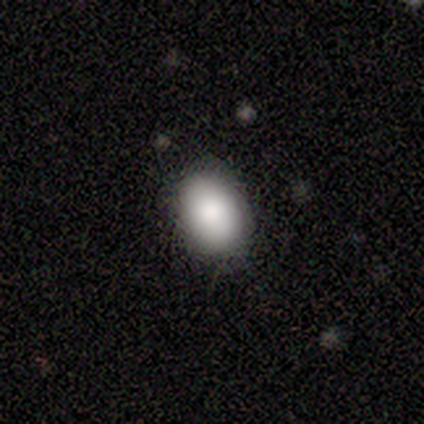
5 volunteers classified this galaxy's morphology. Overall: smooth (80%). How rounded: in between (100%). Merging: none (100%).